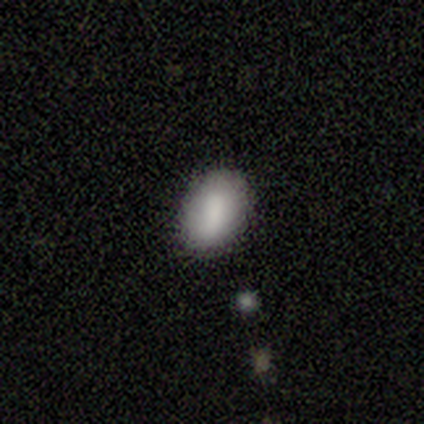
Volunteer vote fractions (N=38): Smooth or featured? smooth (82%)
How rounded? in between (97%)
Merging? none (75%)